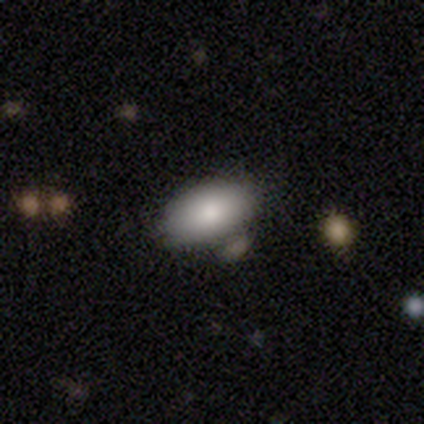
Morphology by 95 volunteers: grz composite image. It shows a smooth galaxy with no disk features (84%) that is in between round and cigar-shaped (96%). Merging: none (67%).